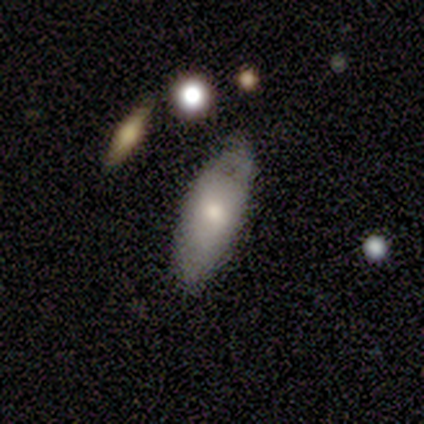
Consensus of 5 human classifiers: A smooth galaxy with no disk features (100%) that is in between round and cigar-shaped (80%).

Vote fractions:
- Smooth or featured? smooth: 100% / featured or disk: 0% / star or artifact: 0%
- How rounded? in between: 80% / cigar-shaped: 20% / round: 0%
- Merging? none: 80% / minor disturbance: 20% / major disturbance: 0% / merger: 0%